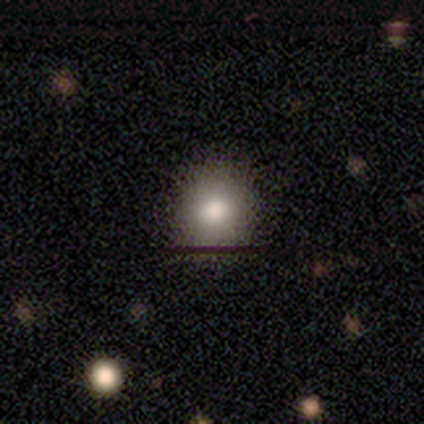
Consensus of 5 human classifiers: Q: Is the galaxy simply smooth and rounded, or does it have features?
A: smooth — 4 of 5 (80%).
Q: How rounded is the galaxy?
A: round — 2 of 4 (50%, tied with in between).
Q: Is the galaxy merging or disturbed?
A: none — 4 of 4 (100%).